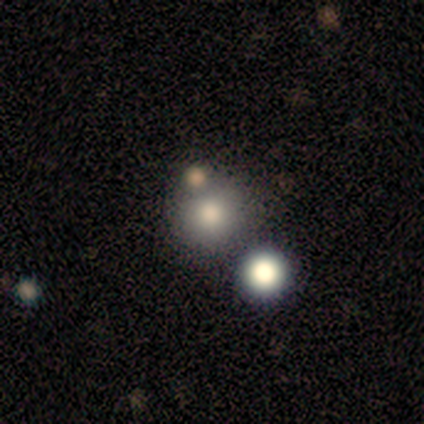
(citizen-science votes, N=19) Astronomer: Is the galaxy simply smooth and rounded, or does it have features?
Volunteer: smooth — 68%.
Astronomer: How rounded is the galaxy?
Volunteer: round — 92%.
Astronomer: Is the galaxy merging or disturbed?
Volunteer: none — 76%.